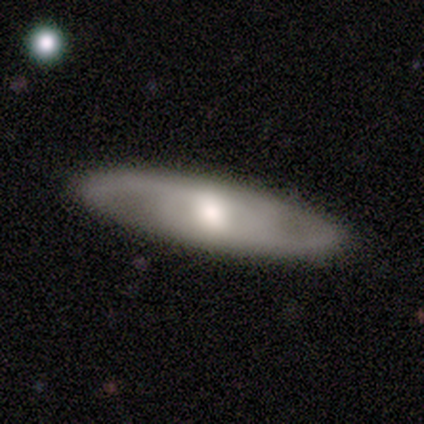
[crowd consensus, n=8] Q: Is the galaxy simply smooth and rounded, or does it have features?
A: featured or disk — 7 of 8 (88%).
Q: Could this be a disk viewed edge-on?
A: no — 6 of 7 (86%).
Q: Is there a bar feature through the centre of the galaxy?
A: no — 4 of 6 (67%).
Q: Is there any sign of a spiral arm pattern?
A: yes — 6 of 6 (100%).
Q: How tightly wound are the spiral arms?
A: tight — 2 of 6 (33%, tied with medium and loose).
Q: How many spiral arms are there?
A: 2 — 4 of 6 (67%).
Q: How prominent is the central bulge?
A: moderate — 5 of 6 (83%).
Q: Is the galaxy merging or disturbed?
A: none — 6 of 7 (86%).